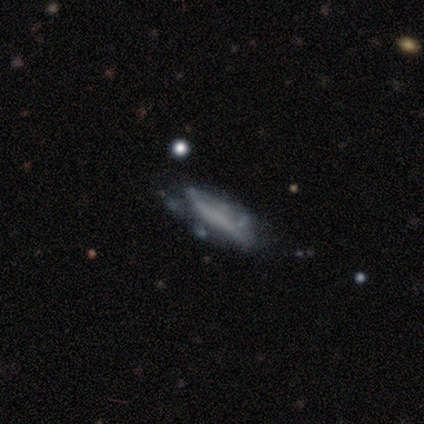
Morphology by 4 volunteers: Q: Smooth or featured?
A: featured or disk (75%); runner-up: smooth (25%)
Q: Edge-on disk?
A: no (100%)
Q: Bar?
A: no (100%)
Q: Spiral arms?
A: no (67%); runner-up: yes (33%)
Q: Bulge size?
A: none (100%)
Q: Merging?
A: minor disturbance (100%)